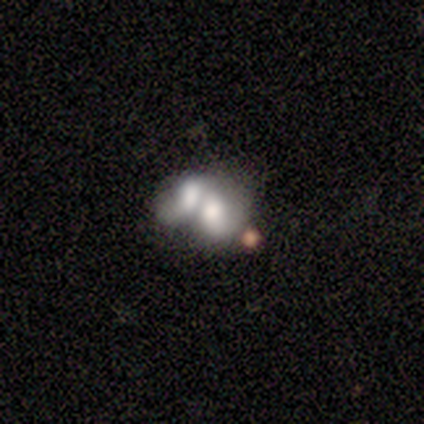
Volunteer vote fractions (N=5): smooth 60%, featured or disk 20%, star or artifact 20%. Down the decision tree: how rounded — in between (100%); merging — merger (100%).